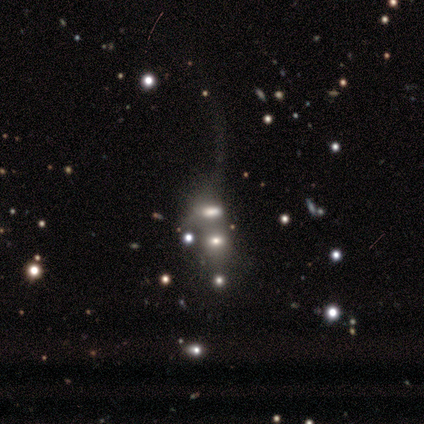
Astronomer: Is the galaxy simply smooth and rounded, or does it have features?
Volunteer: smooth — 40%, tied with featured or disk at 40%.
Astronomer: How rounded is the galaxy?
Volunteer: in between — 100%.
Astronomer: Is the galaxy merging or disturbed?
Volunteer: none — 75%.